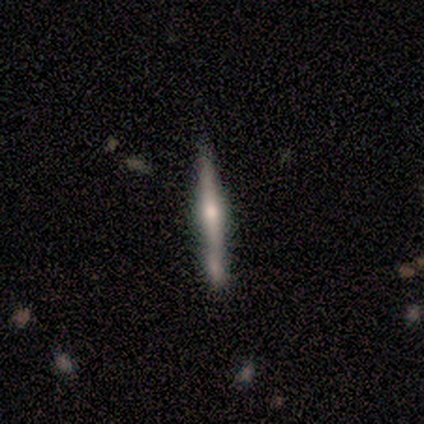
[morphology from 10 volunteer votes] Smooth or featured? 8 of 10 (80%) said featured or disk. Edge-on disk? 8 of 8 (100%) said yes. Edge-on bulge? 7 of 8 (88%) said rounded. Merging? 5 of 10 (50%) said none.